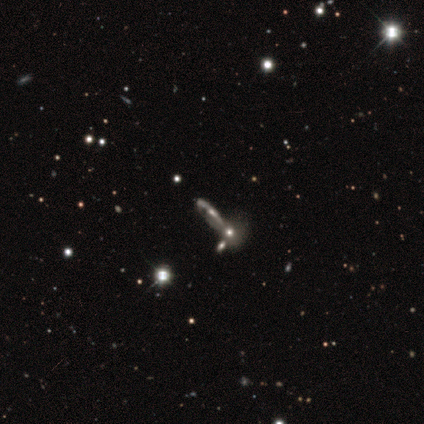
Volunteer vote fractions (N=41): This appears to be a featured or disk galaxy (66%) viewed edge-on (63%) with a rounded central bulge (76%). Merging: merger (50%).